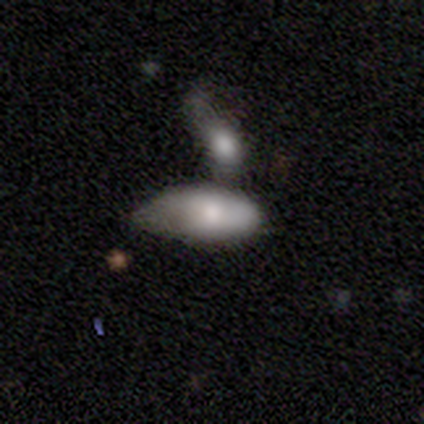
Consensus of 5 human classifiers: A smooth galaxy with no disk features (100%) that is in between round and cigar-shaped (100%). Merging: merger (80%).